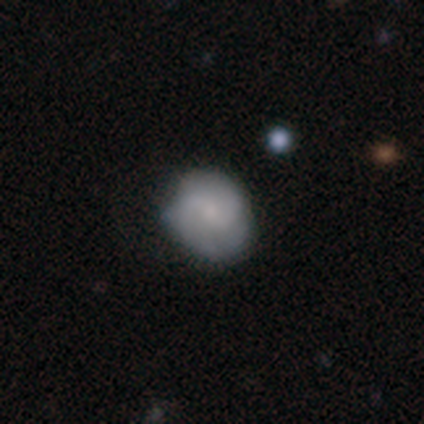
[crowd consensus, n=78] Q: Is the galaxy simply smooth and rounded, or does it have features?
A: featured or disk — 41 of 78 (53%).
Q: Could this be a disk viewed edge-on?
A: no — 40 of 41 (98%).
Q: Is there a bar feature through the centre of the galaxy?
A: weak — 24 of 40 (60%).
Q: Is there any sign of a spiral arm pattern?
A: yes — 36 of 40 (90%).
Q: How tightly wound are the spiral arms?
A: medium — 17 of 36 (47%).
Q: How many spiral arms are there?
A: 2 — 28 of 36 (78%).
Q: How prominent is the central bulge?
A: small — 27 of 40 (68%).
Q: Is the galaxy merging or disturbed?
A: none — 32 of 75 (43%).